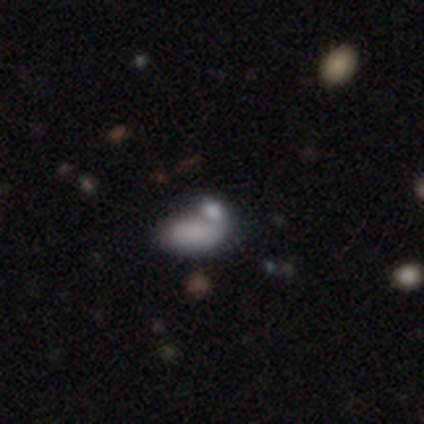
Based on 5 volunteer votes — Smooth or featured: smooth — 40% (tied with star or artifact — 40%)
How rounded: in between — 100%
Merging: merger — 67% (minor disturbance — 33%)